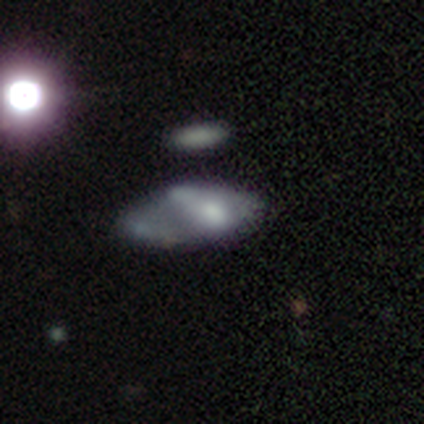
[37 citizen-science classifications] Smooth or featured?
  - featured or disk: 51% *
  - smooth: 46%
  - star or artifact: 3%
Edge-on disk?
  - no: 74% *
  - yes: 26%
Bar?
  - no: 79% *
  - weak: 21%
  - strong: 0%
Spiral arms?
  - no: 86% *
  - yes: 14%
Bulge size?
  - moderate: 36% *
  - none: 29%
  - small: 21%
  - large: 14%
  - dominant: 0%
Merging?
  - merger: 50% *
  - none: 0%
  - minor disturbance: 0%
  - major disturbance: 0%